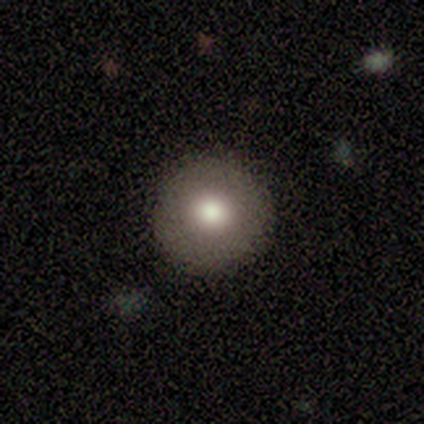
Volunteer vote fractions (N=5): Morphology: type=smooth (100%); roundness=round (100%); merging=none (100%).